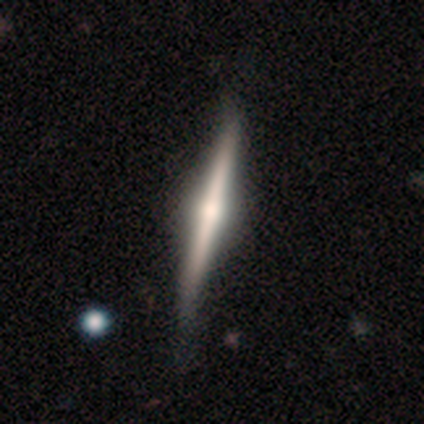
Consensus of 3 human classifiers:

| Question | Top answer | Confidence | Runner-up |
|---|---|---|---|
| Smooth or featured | featured or disk | 67% | smooth (33%) |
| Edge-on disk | yes | 100% | — |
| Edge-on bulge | none | 50% | tied: rounded (50%) |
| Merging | none | 67% | minor disturbance (33%) |